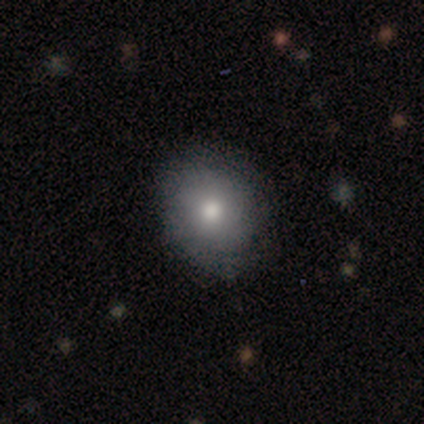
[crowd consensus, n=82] This appears to be a smooth galaxy with no disk features (79%) that is round (72%). Merging: none (45%).